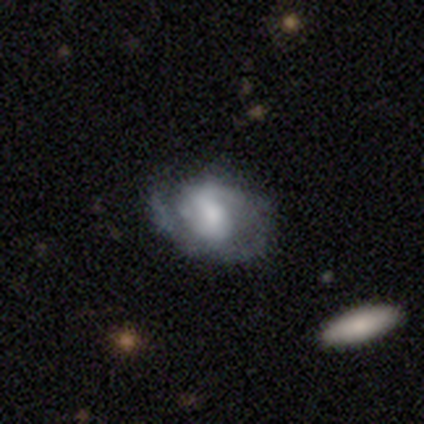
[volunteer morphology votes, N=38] This is clearly a featured or disk galaxy (89%). It is clearly not viewed edge-on (97%). Bar: marginally strong (33%, tied with weak and no). Spiral arm pattern: clearly yes (94%). Spiral arm count: marginally 1 (39%, tied with 2). Spiral winding: possibly tight (48%). Central bulge: possibly moderate (48%). Merging: likely none (64%).